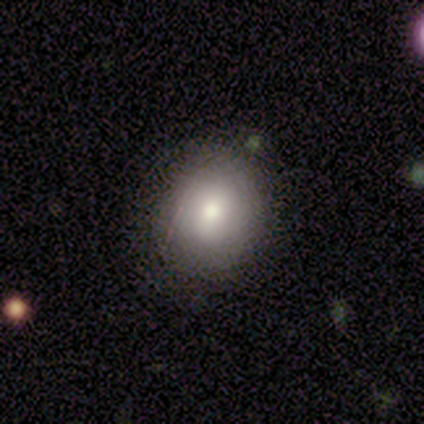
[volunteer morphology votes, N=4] Volunteers were most divided on "smooth or featured": smooth: 50%, featured or disk: 25%, star or artifact: 25%. More confident: how rounded — round (100%); merging — none (100%).